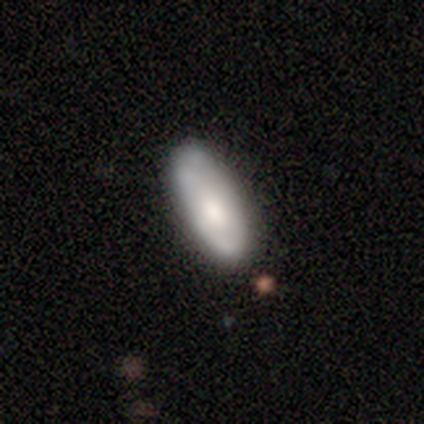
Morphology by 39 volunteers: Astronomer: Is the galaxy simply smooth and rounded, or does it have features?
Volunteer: smooth — 64%.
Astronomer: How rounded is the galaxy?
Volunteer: in between — 76%.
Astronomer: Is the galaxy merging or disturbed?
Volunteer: none — 78%.